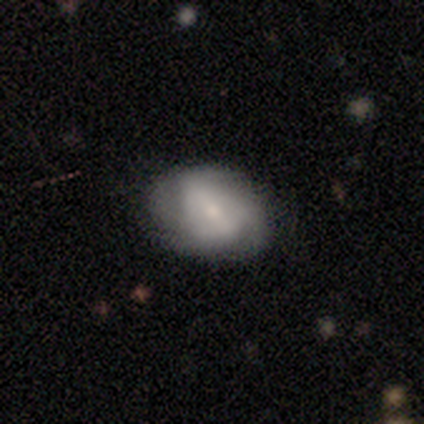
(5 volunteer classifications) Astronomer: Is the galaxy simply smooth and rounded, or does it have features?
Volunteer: smooth — 60% (runner-up: featured or disk, 40%).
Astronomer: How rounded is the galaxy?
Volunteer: in between — 100%.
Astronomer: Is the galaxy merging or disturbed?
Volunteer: minor disturbance — 60% (runner-up: none, 40%).